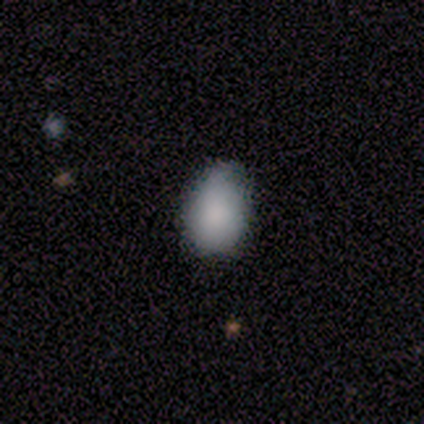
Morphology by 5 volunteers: A smooth galaxy with no disk features (100%) that is in between round and cigar-shaped (100%).

Vote fractions:
- Smooth or featured? smooth: 100% / featured or disk: 0% / star or artifact: 0%
- How rounded? in between: 100% / round: 0% / cigar-shaped: 0%
- Merging? none: 60% / minor disturbance: 20% / major disturbance: 20% / merger: 0%